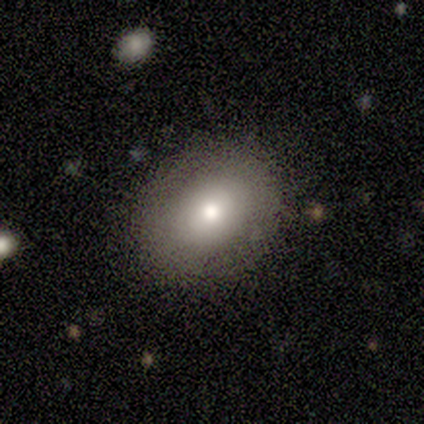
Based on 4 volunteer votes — smooth 75%, star or artifact 25%, featured or disk 0%. Down the decision tree: how rounded — round (100%); merging — none (67%).